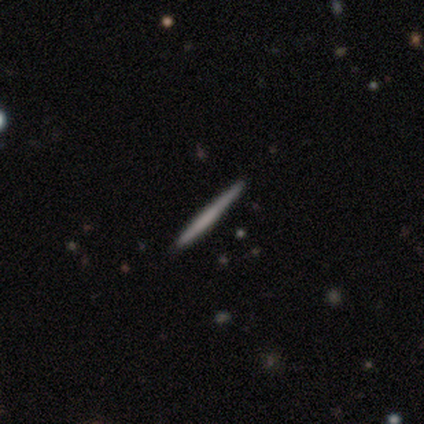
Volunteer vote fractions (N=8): Overall: smooth (50%, tied with featured or disk). How rounded: cigar-shaped (100%). Merging: none (100%).